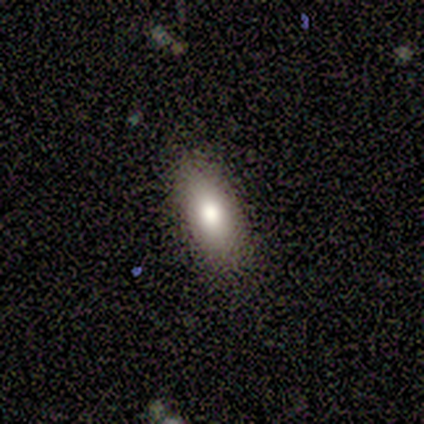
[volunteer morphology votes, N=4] smooth_or_featured: smooth (p=0.50) [tied with: featured or disk p=0.50]
how_rounded: in between (p=1.00)
merging: none (p=1.00)